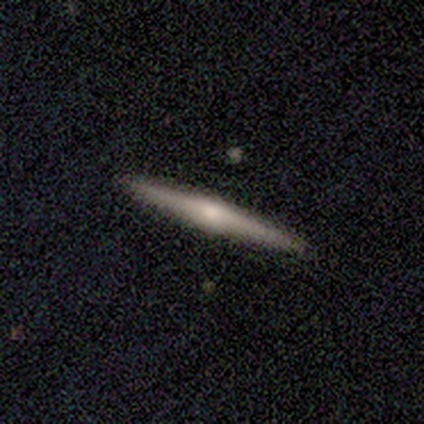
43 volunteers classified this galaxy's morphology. smooth_or_featured: featured or disk (p=0.70) [alt: smooth p=0.26]
disk_edge_on: yes (p=0.97) [alt: no p=0.03]
edge_on_bulge: rounded (p=0.93) [alt: boxy p=0.03]
merging: none (p=0.88) [alt: minor disturbance p=0.10]